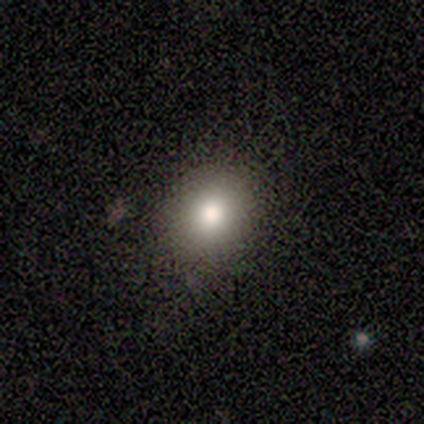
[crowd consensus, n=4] Smooth or featured: smooth — 100%
How rounded: round — 75% (in between — 25%)
Merging: none — 75% (minor disturbance — 25%)